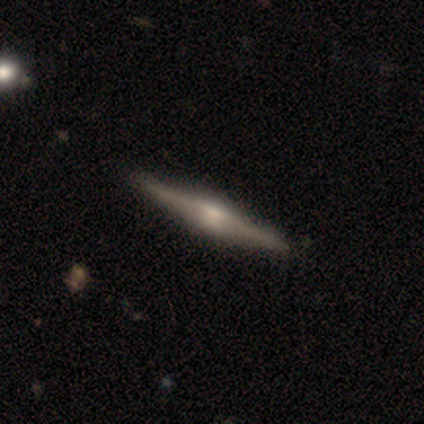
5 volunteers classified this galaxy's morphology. featured or disk 100%, smooth 0%, star or artifact 0%. Down the decision tree: edge-on disk — yes (100%); edge-on bulge — boxy (60%); merging — none (100%).